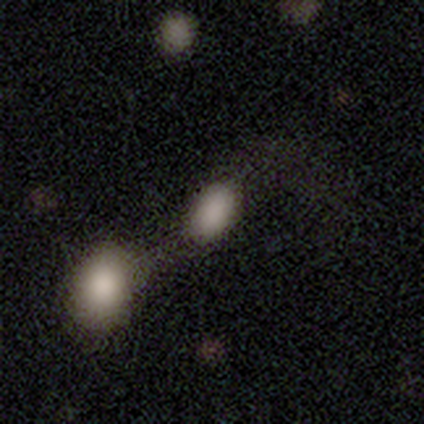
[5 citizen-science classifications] Smooth or featured? 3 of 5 (60%) said smooth. How rounded? 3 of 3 (100%) said in between. Merging? 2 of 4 (50%, tied with merger) said none.